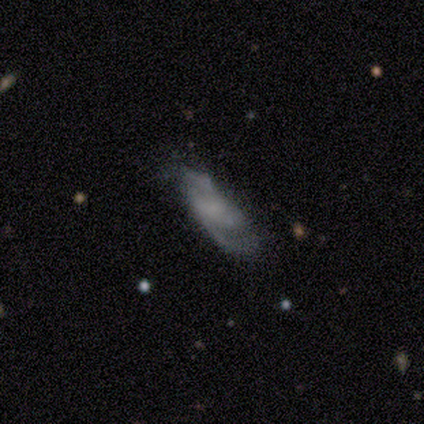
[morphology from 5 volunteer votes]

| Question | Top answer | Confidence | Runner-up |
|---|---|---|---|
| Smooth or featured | featured or disk | 80% | smooth (20%) |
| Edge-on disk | no | 100% | — |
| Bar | no | 75% | weak (25%) |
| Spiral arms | yes | 100% | — |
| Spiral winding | tight | 50% | tied: loose (50%) |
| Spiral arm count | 2 | 100% | — |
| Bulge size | none | 75% | small (25%) |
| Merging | minor disturbance | 60% | none (20%) |